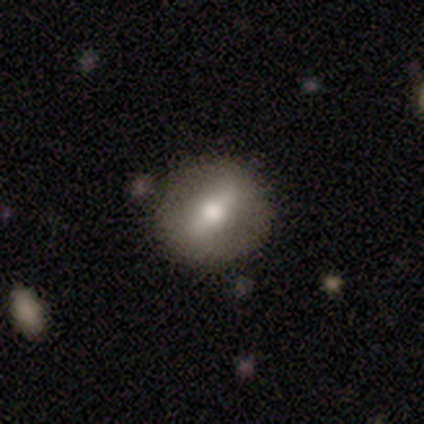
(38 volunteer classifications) This is possibly a featured or disk galaxy (50%). It is likely not viewed edge-on (63%). Bar: clearly strong (92%). Spiral arm pattern: clearly no (92%). Central bulge: possibly large (50%). Merging: clearly none (83%).